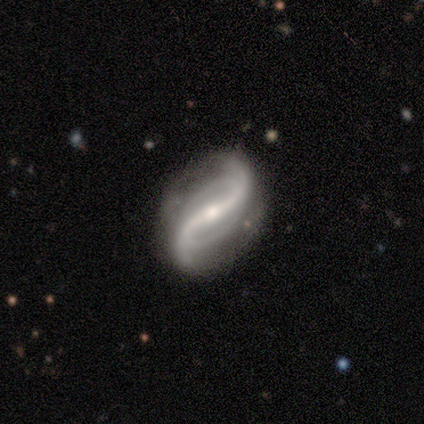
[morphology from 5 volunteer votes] Smooth or featured: featured or disk — 100%
Edge-on disk: no — 100%
Bar: strong — 60% (weak — 40%)
Spiral arms: yes — 80% (no — 20%)
Spiral winding: loose — 100%
Spiral arm count: 2 — 75% (can't tell — 25%)
Bulge size: small — 100%
Merging: none — 60% (minor disturbance — 40%)